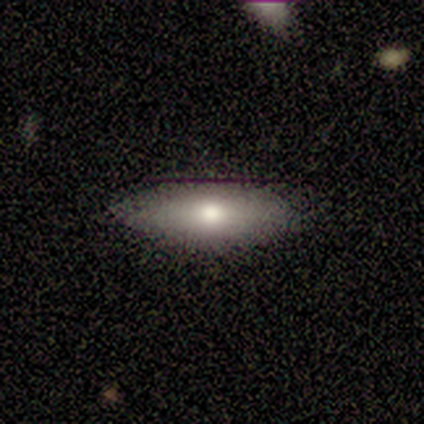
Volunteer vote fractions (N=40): smooth_or_featured: smooth (p=0.75) [alt: featured or disk p=0.20]
how_rounded: in between (p=0.57) [alt: cigar-shaped p=0.43]
merging: none (p=0.76) [alt: minor disturbance p=0.18]